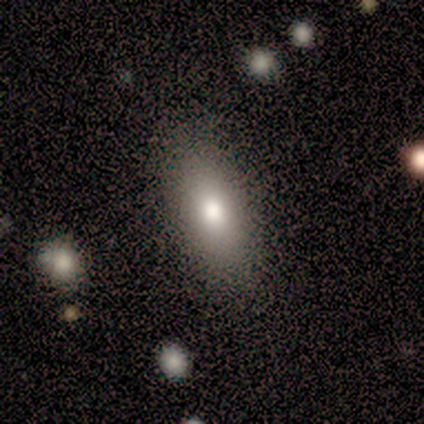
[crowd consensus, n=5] smooth 80%, star or artifact 20%, featured or disk 0%. Down the decision tree: how rounded — in between (100%); merging — none (75%).